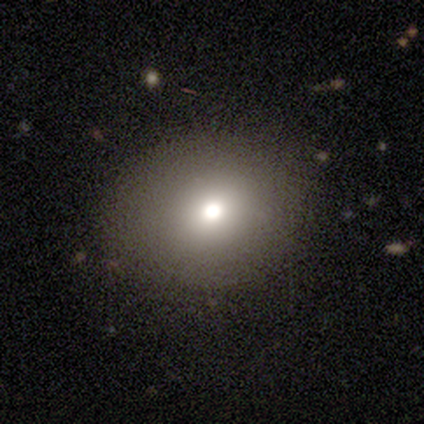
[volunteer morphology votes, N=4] type=smooth (75%); roundness=round (67%); merging=none (100%).